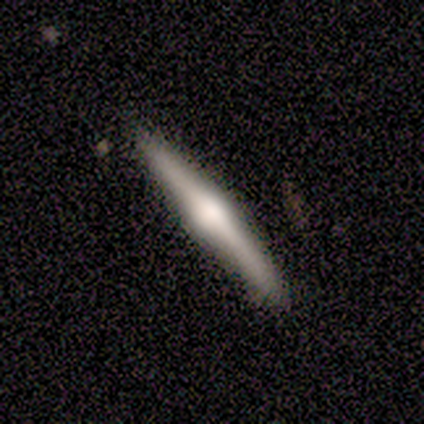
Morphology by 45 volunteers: Smooth or featured? featured or disk (67%)
Edge-on disk? yes (97%)
Edge-on bulge? rounded (90%)
Merging? none (86%)